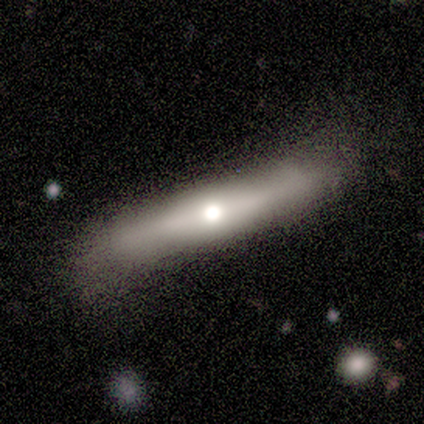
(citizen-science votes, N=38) smooth_or_featured: featured or disk (p=0.71) [alt: smooth p=0.21]
disk_edge_on: yes (p=0.85) [alt: no p=0.15]
edge_on_bulge: rounded (p=0.87) [alt: none p=0.09]
merging: none (p=0.69) [alt: minor disturbance p=0.26]